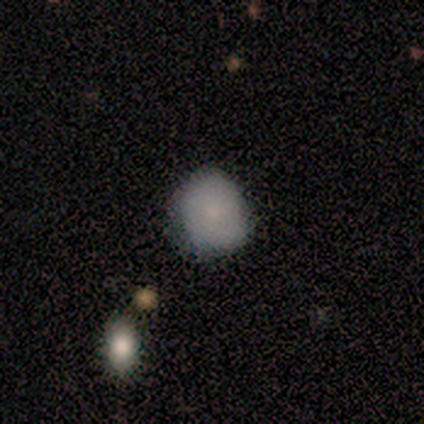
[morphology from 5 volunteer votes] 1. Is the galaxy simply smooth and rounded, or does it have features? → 80% smooth, 20% featured or disk, 0% star or artifact.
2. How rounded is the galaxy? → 100% round, 0% in between, 0% cigar-shaped.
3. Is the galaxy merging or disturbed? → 60% none, 20% minor disturbance, 20% major disturbance, 0% merger.